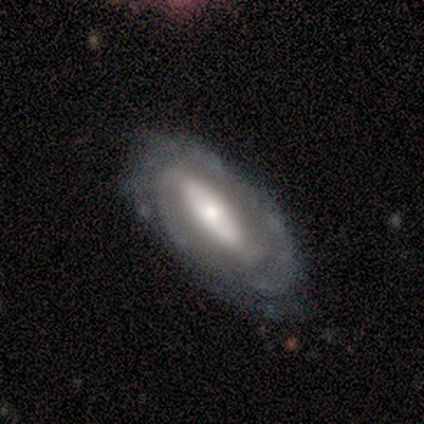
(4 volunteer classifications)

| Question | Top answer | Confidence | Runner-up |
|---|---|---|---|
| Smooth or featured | featured or disk | 75% | smooth (25%) |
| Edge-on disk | no | 100% | — |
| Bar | strong | 67% | weak (33%) |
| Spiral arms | yes | 100% | — |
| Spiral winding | loose | 67% | tight (33%) |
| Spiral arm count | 2 | 100% | — |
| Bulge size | moderate | 67% | small (33%) |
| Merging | none | 100% | — |